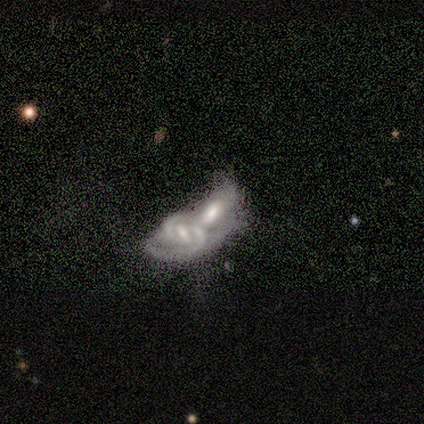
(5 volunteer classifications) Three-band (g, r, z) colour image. It shows a featured or disk galaxy (60%) with no bar (67%), 2 (50%, tied with can't tell) medium (100%) spiral arms (67%) and a moderate central bulge (33%, tied with small and none). Merging: merger (75%).